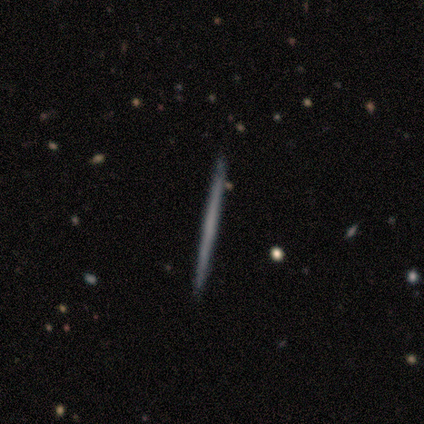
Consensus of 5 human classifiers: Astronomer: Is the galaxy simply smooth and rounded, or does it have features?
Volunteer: smooth — 40%, tied with featured or disk at 40%.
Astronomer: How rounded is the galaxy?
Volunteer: cigar-shaped — 100%.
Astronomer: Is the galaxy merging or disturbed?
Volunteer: none — 100%.